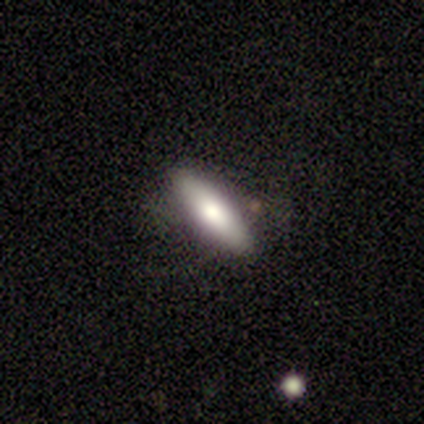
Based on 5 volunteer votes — A smooth galaxy with no disk features (80%) that is cigar-shaped (100%). Merging: none (60%).